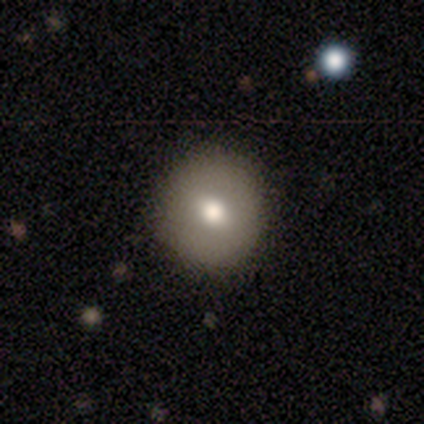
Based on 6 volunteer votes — smooth-or-featured: smooth: 83% | featured or disk: 17% | star or artifact: 0%
  how-rounded: round: 100% | in between: 0% | cigar-shaped: 0%
  merging: none: 100% | minor disturbance: 0% | major disturbance: 0% | merger: 0%